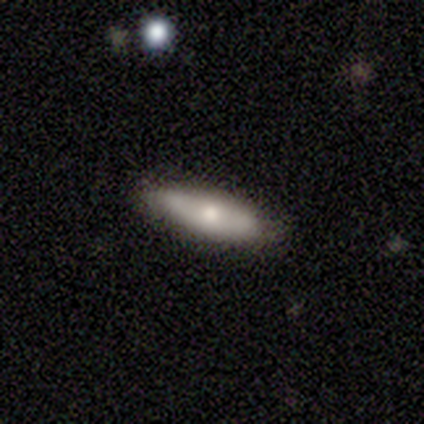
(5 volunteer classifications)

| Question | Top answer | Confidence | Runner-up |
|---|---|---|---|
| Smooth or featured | smooth | 80% | star or artifact (20%) |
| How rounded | in between | 75% | cigar-shaped (25%) |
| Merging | none | 100% | — |